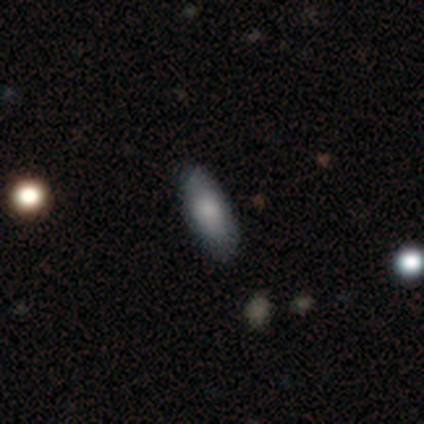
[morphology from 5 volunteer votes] This appears to be a smooth galaxy with no disk features (100%) that is in between round and cigar-shaped (80%). Merging: none (100%).